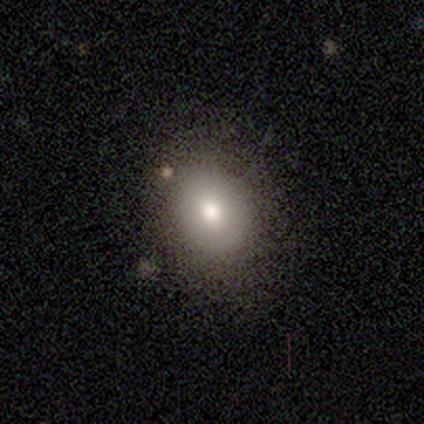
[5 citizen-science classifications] smooth_or_featured: smooth (p=1.00)
how_rounded: in between (p=0.60) [alt: round p=0.40]
merging: none (p=1.00)